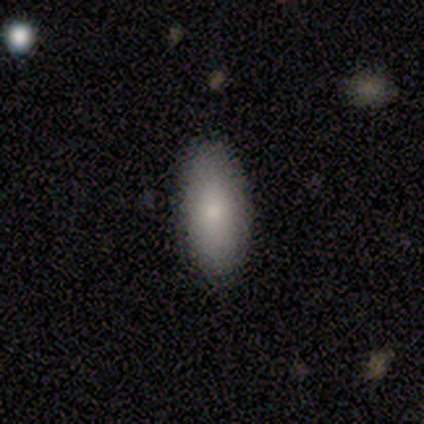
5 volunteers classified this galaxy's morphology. smooth 80%, star or artifact 20%, featured or disk 0%. Down the decision tree: how rounded — in between (50%, tied with cigar-shaped); merging — none (75%).